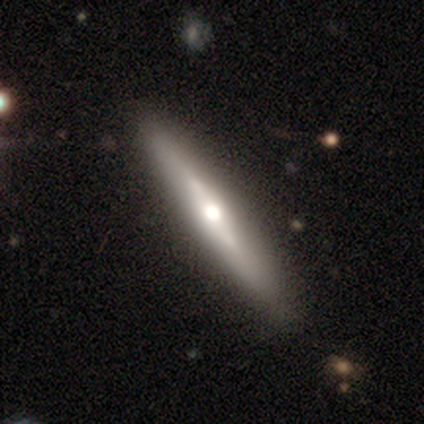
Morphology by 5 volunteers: A featured or disk galaxy (80%) viewed edge-on (100%) with a rounded central bulge (100%).

Vote fractions:
- Smooth or featured? featured or disk: 80% / star or artifact: 20% / smooth: 0%
- Edge-on disk? yes: 100% / no: 0%
- Edge-on bulge? rounded: 100% / boxy: 0% / none: 0%
- Merging? none: 100% / minor disturbance: 0% / major disturbance: 0% / merger: 0%